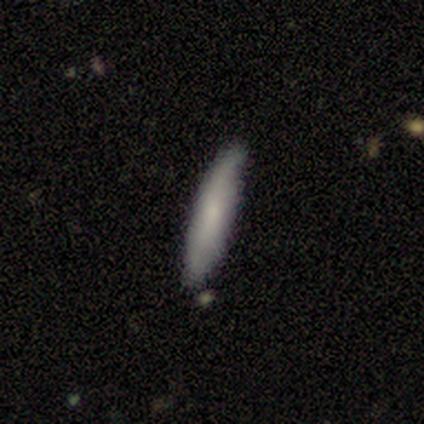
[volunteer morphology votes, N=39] Smooth or featured? 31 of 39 (79%) said smooth. How rounded? 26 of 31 (84%) said cigar-shaped. Merging? 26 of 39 (67%) said none.